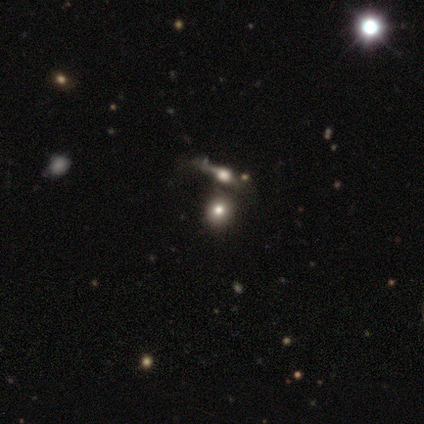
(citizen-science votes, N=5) A smooth galaxy with no disk features (60%) that is round (67%). Merging: none (75%).